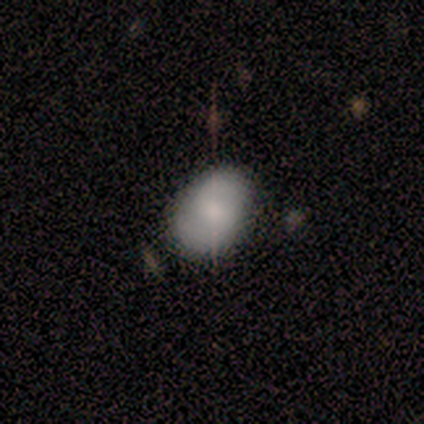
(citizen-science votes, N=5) A smooth galaxy with no disk features (60%) that is in between round and cigar-shaped (100%). Merging: none (40%, tied with minor disturbance).